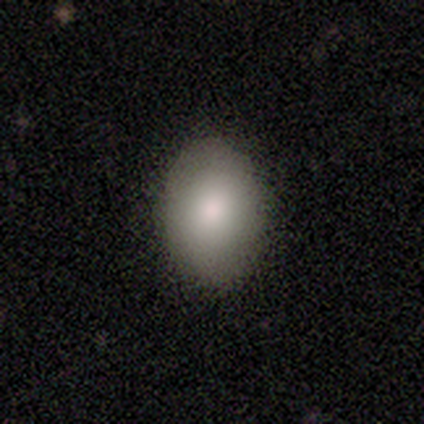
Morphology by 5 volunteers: This appears to be a smooth galaxy with no disk features (80%) that is in between round and cigar-shaped (75%). Merging: none (100%).